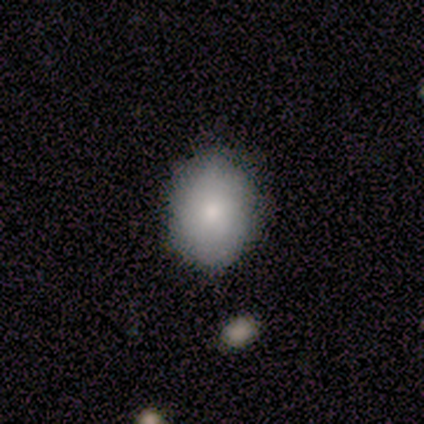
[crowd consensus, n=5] smooth-or-featured: smooth: 80% | featured or disk: 20% | star or artifact: 0%
  how-rounded: round: 50% (tied) | in between: 50% (tied) | cigar-shaped: 0%
  merging: none: 100% | minor disturbance: 0% | major disturbance: 0% | merger: 0%